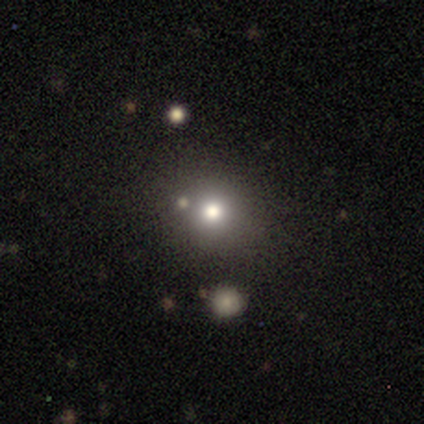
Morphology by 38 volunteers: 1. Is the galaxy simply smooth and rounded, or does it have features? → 66% smooth, 26% star or artifact, 8% featured or disk.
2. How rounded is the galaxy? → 92% round, 8% in between, 0% cigar-shaped.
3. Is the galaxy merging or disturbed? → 68% none, 18% merger, 11% minor disturbance, 4% major disturbance.